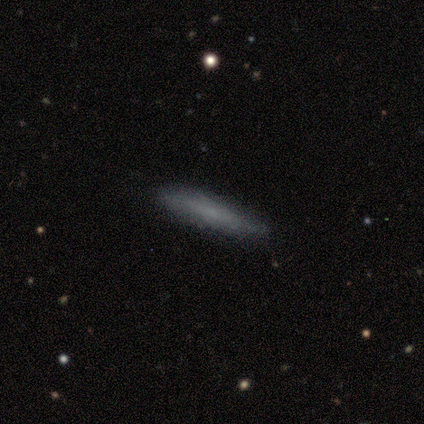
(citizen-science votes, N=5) smooth 80%, featured or disk 20%, star or artifact 0%. Down the decision tree: how rounded — cigar-shaped (100%); merging — none (80%).